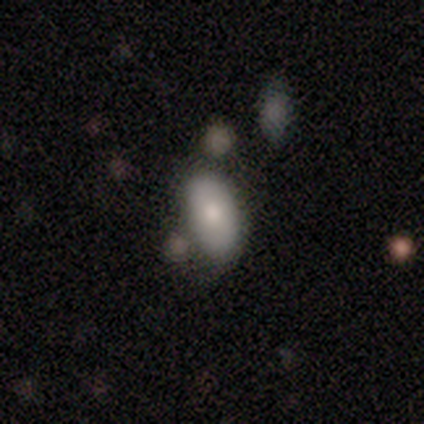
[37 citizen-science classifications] Q: Smooth or featured?
A: smooth (78%); runner-up: star or artifact (14%)
Q: How rounded?
A: in between (100%)
Q: Merging?
A: none (66%); runner-up: minor disturbance (22%)